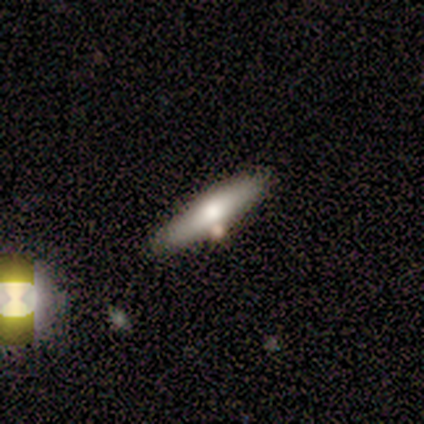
Smooth or featured: smooth — 50% (tied with featured or disk — 50%)
How rounded: cigar-shaped — 100%
Merging: none — 100%